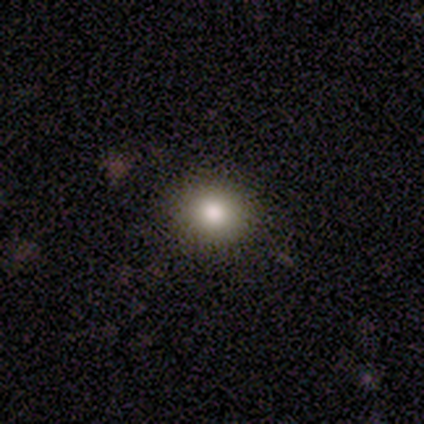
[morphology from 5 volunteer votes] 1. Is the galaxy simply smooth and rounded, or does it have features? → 80% smooth, 20% featured or disk, 0% star or artifact.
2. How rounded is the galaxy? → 75% round, 25% in between, 0% cigar-shaped.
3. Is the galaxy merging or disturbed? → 100% none, 0% minor disturbance, 0% major disturbance, 0% merger.